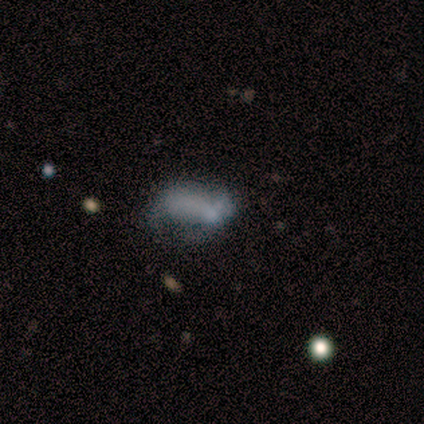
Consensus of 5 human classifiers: Smooth or featured? 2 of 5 (40%, tied with featured or disk) said smooth. How rounded? 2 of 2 (100%) said in between. Merging? 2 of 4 (50%, tied with major disturbance) said minor disturbance.